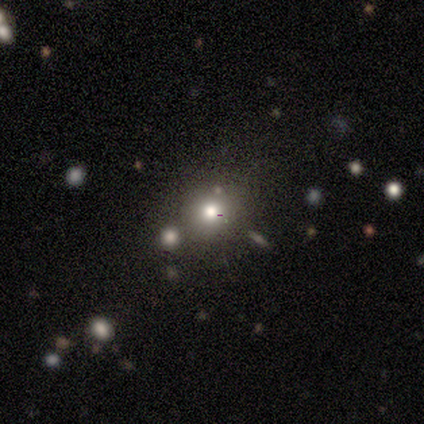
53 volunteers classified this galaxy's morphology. Smooth or featured: smooth — 68% (star or artifact — 17%)
How rounded: round — 89% (in between — 11%)
Merging: none — 82% (merger — 16%)